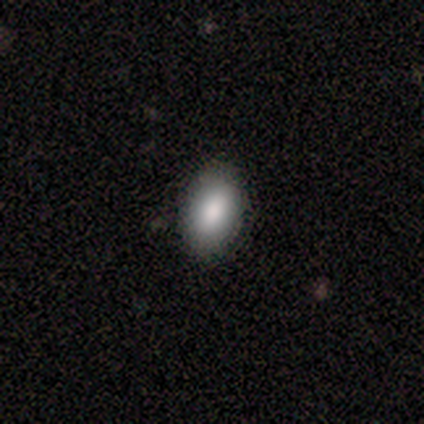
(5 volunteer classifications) This is clearly a smooth galaxy (80%). How rounded: clearly in between (100%). Merging: clearly none (100%).